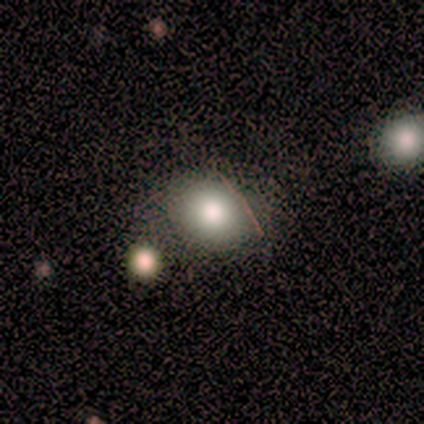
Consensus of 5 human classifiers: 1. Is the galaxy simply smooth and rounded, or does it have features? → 100% smooth, 0% featured or disk, 0% star or artifact.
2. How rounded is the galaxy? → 60% in between, 40% round, 0% cigar-shaped.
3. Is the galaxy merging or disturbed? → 80% none, 20% major disturbance, 0% minor disturbance, 0% merger.